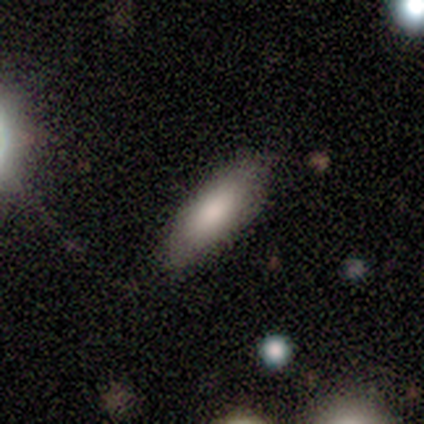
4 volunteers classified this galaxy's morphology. smooth 100%, featured or disk 0%, star or artifact 0%. Down the decision tree: how rounded — in between (50%, tied with cigar-shaped); merging — none (75%).